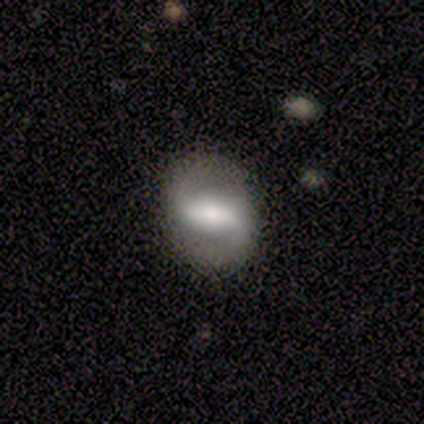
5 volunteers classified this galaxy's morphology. Q: Smooth or featured?
A: smooth (60%); runner-up: featured or disk (40%)
Q: How rounded?
A: in between (67%); runner-up: round (33%)
Q: Merging?
A: none (80%); runner-up: major disturbance (20%)